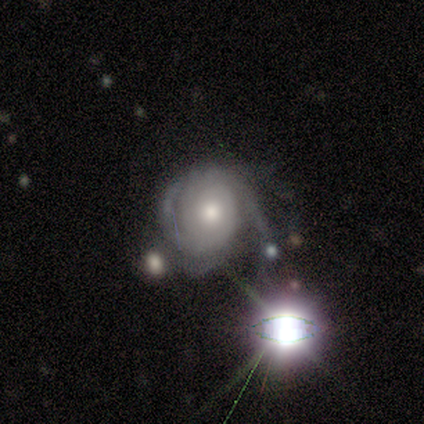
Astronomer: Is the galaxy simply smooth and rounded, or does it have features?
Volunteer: featured or disk — 60% (runner-up: star or artifact, 40%).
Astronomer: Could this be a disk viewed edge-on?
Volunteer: no — 100%.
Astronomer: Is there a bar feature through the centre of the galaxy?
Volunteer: no — 100%.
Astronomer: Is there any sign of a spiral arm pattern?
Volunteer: yes — 100%.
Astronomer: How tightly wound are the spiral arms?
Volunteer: tight — 67%.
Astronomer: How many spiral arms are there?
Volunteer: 2 — 67%.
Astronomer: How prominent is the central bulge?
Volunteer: small — 67%.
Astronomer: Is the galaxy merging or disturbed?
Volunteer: none — 67%.